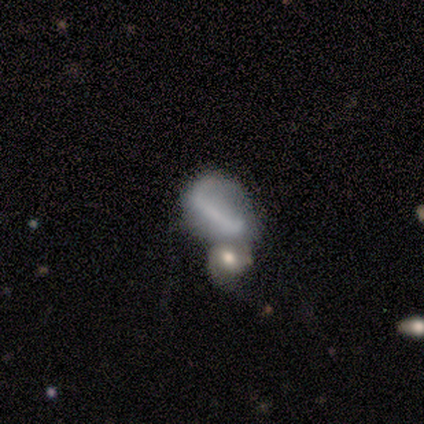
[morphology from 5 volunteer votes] Smooth or featured? featured or disk (60%)
Edge-on disk? no (100%)
Bar? strong (67%)
Spiral arms? no (67%)
Bulge size? none (67%)
Merging? minor disturbance (40%, tied with merger)